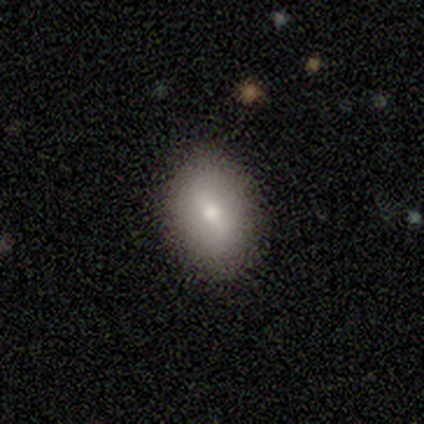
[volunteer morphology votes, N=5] type=smooth (100%); roundness=in between (60%); merging=none (80%).